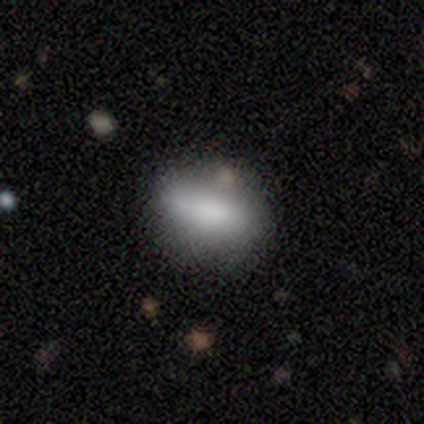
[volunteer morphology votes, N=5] This appears to be a smooth galaxy with no disk features (100%) that is in between round and cigar-shaped (100%). Merging: none (80%).